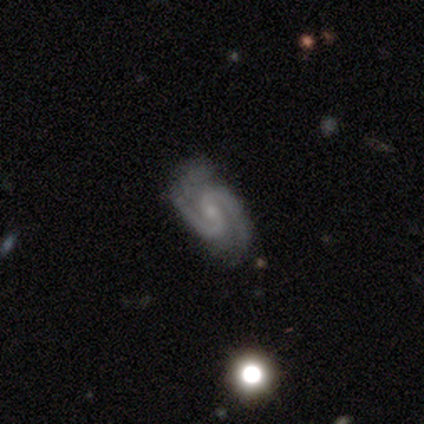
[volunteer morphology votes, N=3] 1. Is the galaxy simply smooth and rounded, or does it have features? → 100% featured or disk, 0% smooth, 0% star or artifact.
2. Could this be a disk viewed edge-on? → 100% no, 0% yes.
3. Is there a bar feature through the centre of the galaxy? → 33% strong (tied), 33% weak (tied), 33% no (tied).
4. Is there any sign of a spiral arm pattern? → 100% yes, 0% no.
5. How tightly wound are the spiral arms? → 67% tight, 33% loose, 0% medium.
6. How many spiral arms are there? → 100% 2, 0% 1, 0% 3, 0% 4, 0% more than 4, 0% can't tell.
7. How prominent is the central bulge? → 67% small, 33% moderate, 0% dominant, 0% large, 0% none.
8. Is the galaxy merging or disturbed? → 67% none, 33% minor disturbance, 0% major disturbance, 0% merger.